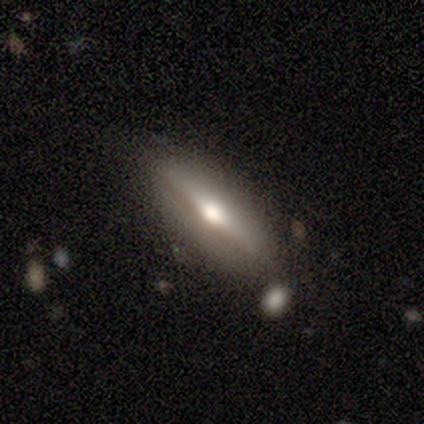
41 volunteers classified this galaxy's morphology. This is likely a featured or disk galaxy (63%). It is clearly viewed edge-on (88%). Edge-on bulge: clearly rounded (83%). Merging: clearly none (85%).